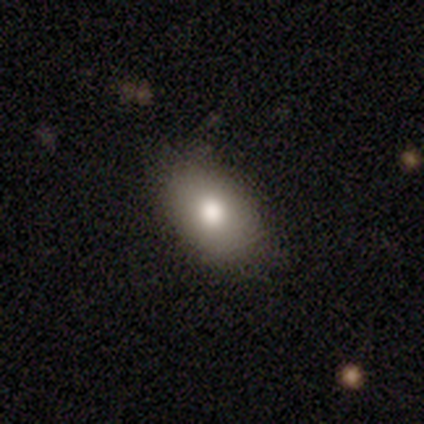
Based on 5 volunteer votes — Smooth or featured: smooth — 100%
How rounded: in between — 100%
Merging: none — 80% (minor disturbance — 20%)